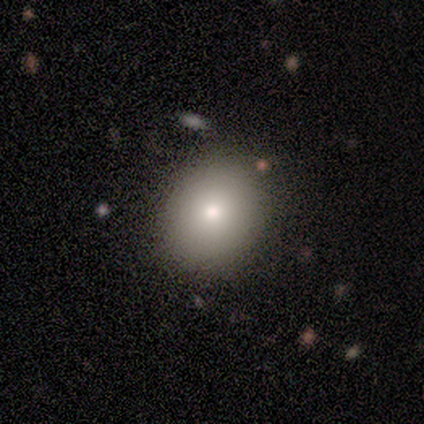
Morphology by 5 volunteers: A featured or disk galaxy (60%) with no bar (100%), no spiral arms (100%) and a small central bulge (67%). Merging: none (100%).